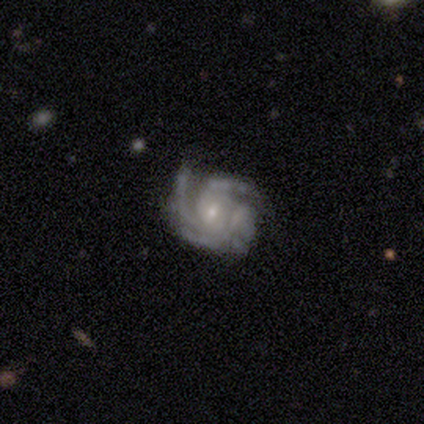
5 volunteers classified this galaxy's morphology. A featured or disk galaxy (100%) with no bar (60%), 4 (60%) tight (60%) spiral arms (100%) and a small central bulge (80%).

Vote fractions:
- Smooth or featured? featured or disk: 100% / smooth: 0% / star or artifact: 0%
- Edge-on disk? no: 100% / yes: 0%
- Bar? no: 60% / weak: 40% / strong: 0%
- Spiral arms? yes: 100% / no: 0%
- Spiral winding? tight: 60% / medium: 40% / loose: 0%
- Spiral arm count? 4: 60% / 2: 20% / 3: 20% / 1: 0% / more than 4: 0% / can't tell: 0%
- Bulge size? small: 80% / moderate: 20% / dominant: 0% / large: 0% / none: 0%
- Merging? none: 80% / minor disturbance: 20% / major disturbance: 0% / merger: 0%